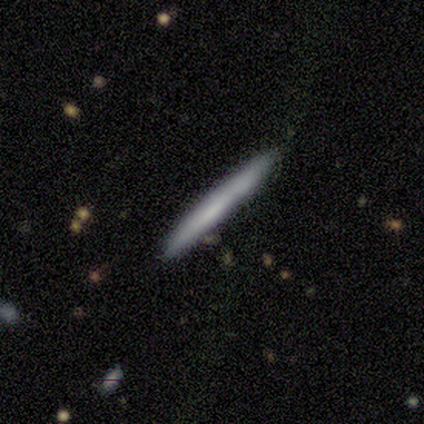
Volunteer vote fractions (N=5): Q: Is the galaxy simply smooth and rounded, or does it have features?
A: smooth — 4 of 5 (80%).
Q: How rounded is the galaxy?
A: cigar-shaped — 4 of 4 (100%).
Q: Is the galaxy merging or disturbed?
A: none — 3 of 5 (60%).